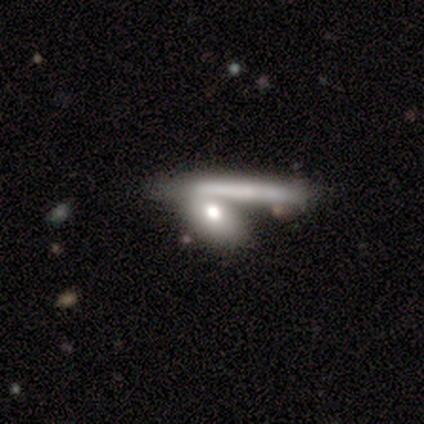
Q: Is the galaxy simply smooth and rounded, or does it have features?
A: smooth — 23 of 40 (57%).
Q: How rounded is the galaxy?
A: in between — 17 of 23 (74%).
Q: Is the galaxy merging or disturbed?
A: none — 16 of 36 (44%).